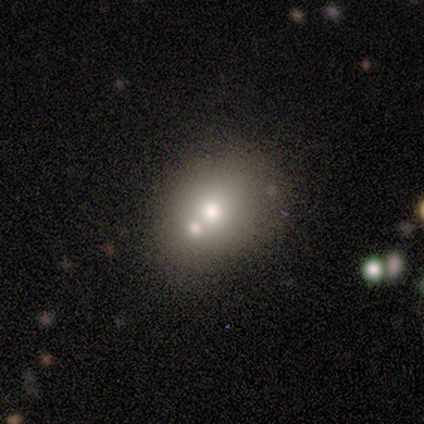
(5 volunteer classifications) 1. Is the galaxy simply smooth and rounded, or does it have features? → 60% smooth, 20% featured or disk, 20% star or artifact.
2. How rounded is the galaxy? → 67% round, 33% in between, 0% cigar-shaped.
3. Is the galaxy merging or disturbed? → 75% none, 25% merger, 0% minor disturbance, 0% major disturbance.